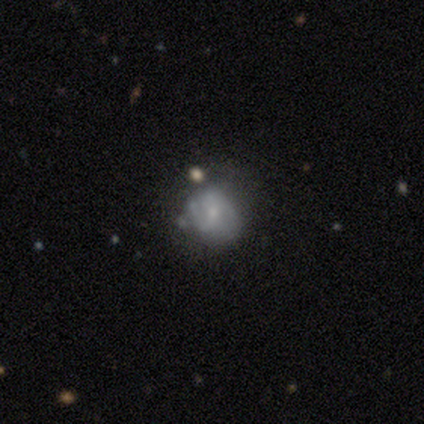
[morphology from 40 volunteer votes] type=featured or disk (48%); edge-on=no (89%); bar=no (88%); spiral arms=yes (53%); winding=medium (44%); arm count=2 (44%); bulge=small (47%); merging=none (69%).